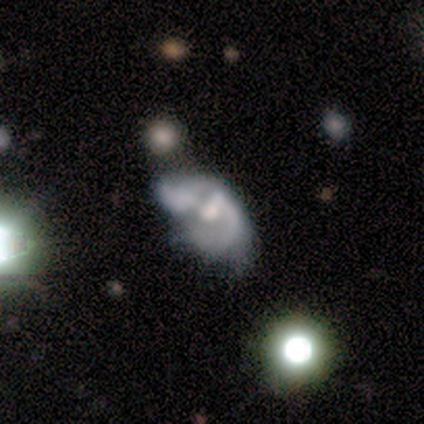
smooth-or-featured: featured or disk: 83% | smooth: 9% | star or artifact: 9%
  disk-edge-on: no: 100% | yes: 0%
    bar: no: 58% | weak: 32% | strong: 11%
    has-spiral-arms: yes: 58% | no: 42%
      spiral-winding: medium: 45% | loose: 41% | tight: 14%
      spiral-arm-count: 2: 36% | 1: 32% | can't tell: 32% | 3: 0% | 4: 0% | more than 4: 0%
    bulge-size: moderate: 61% | large: 18% | small: 13% | none: 8% | dominant: 0%
  merging: major disturbance: 40% | minor disturbance: 24% | merger: 24% | none: 12%